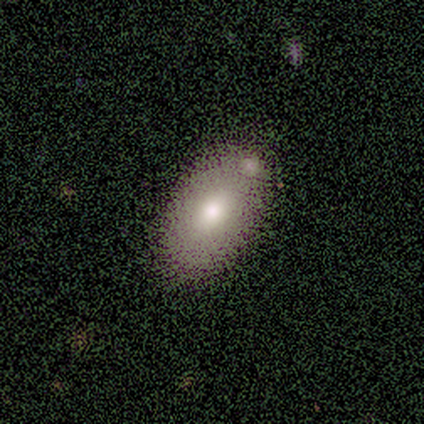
Smooth or featured? 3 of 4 (75%) said smooth. How rounded? 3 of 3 (100%) said in between. Merging? 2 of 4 (50%, tied with merger) said none.